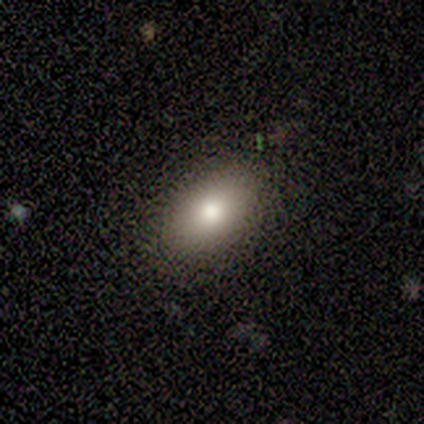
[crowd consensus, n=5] Morphology: type=smooth (80%); roundness=in between (100%); merging=none (75%).